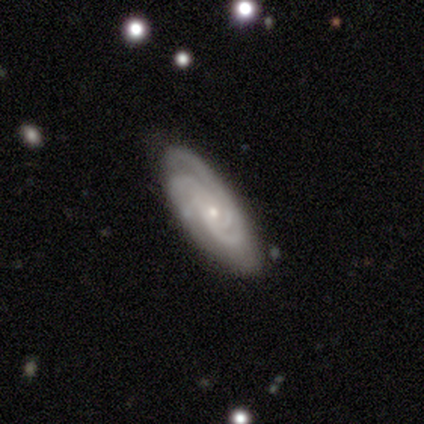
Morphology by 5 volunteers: smooth_or_featured: featured or disk (p=1.00)
disk_edge_on: no (p=1.00)
bar: no (p=0.60) [alt: strong p=0.20]
has_spiral_arms: yes (p=1.00)
spiral_winding: tight (p=0.40) [tied with: medium p=0.40]
spiral_arm_count: 2 (p=0.40) [tied with: 3 p=0.40]
bulge_size: small (p=0.60) [alt: dominant p=0.20]
merging: none (p=0.80) [alt: minor disturbance p=0.20]